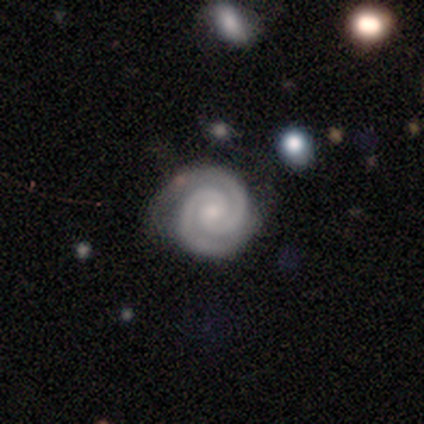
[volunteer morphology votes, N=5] type=featured or disk (100%); edge-on=no (100%); bar=weak (40%, tied with no); spiral arms=yes (100%); winding=tight (100%); arm count=2 (100%); bulge=small (80%); merging=none (80%).